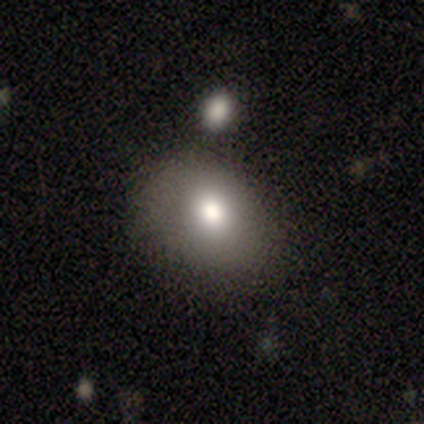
smooth 40% (tied), featured or disk 40% (tied), star or artifact 20%. Down the decision tree: how rounded — round (50%, tied with in between); merging — none (50%).